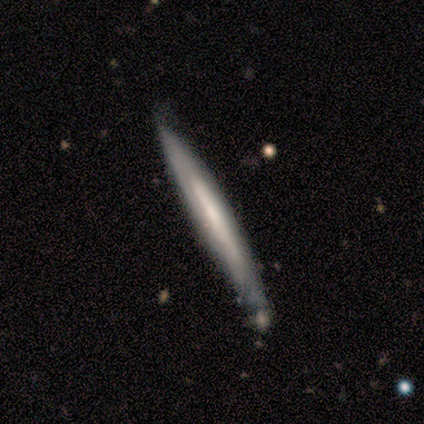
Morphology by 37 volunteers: Volunteers were most divided on "smooth or featured": featured or disk: 65%, smooth: 32%, star or artifact: 3%. More confident: edge-on disk — yes (83%); merging — none (78%); edge-on bulge — none (75%).